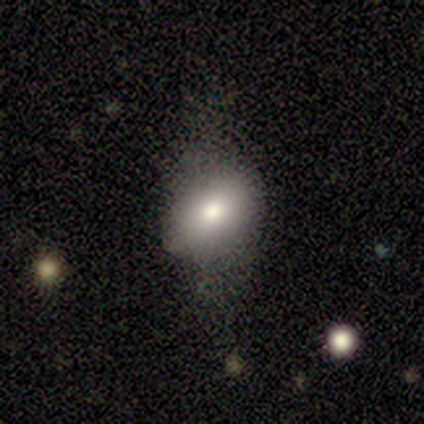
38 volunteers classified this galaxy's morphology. Volunteers were most divided on "how rounded": in between: 64%, round: 32%, cigar-shaped: 4%. More confident: smooth or featured — smooth (66%); merging — none (60%).